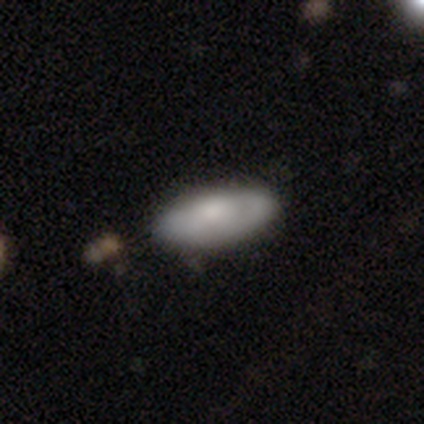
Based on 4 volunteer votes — A smooth galaxy with no disk features (75%) that is in between round and cigar-shaped (100%). Merging: none (100%).